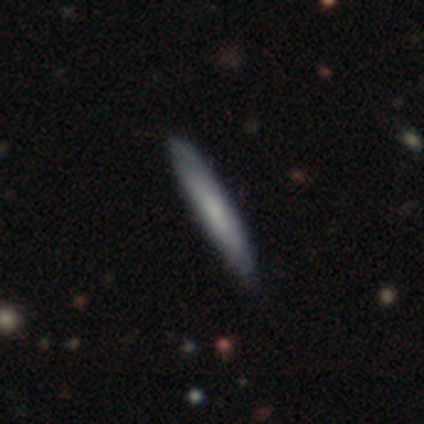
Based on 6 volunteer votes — This is possibly a featured or disk galaxy (50%). It is likely not viewed edge-on (67%). Bar: possibly weak (50%, tied with no). Spiral arm pattern: possibly yes (50%, tied with no). Spiral arm count: clearly can't tell (100%). Spiral winding: clearly medium (100%). Central bulge: possibly small (50%, tied with none). Merging: clearly none (80%).